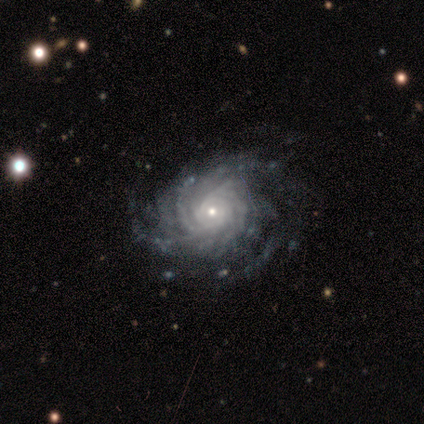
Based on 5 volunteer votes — This is clearly a featured or disk galaxy (100%). It is clearly not viewed edge-on (100%). Bar: clearly no (80%). Spiral arm pattern: clearly yes (100%). Spiral arm count: marginally 4 (40%). Spiral winding: likely tight (60%). Central bulge: clearly small (100%). Merging: clearly none (80%).